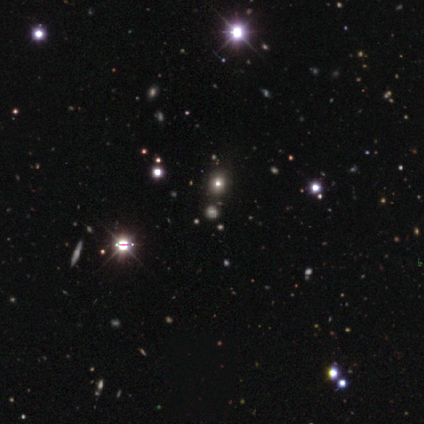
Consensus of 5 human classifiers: Volunteers were most divided on "smooth or featured" (2-way tie): smooth: 40%, star or artifact: 40%, featured or disk: 20%. More confident: how rounded — round (100%); merging — none (67%).